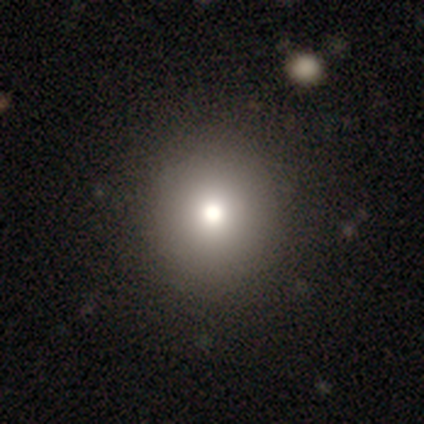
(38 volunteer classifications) This appears to be a smooth galaxy with no disk features (76%) that is round (93%). Merging: none (73%).